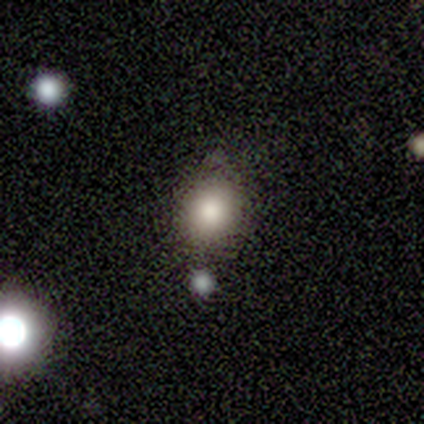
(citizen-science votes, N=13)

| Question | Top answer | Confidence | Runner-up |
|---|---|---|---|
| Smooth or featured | smooth | 92% | featured or disk (8%) |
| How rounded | in between | 50% | round (42%) |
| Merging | none | 46% | minor disturbance (31%) |